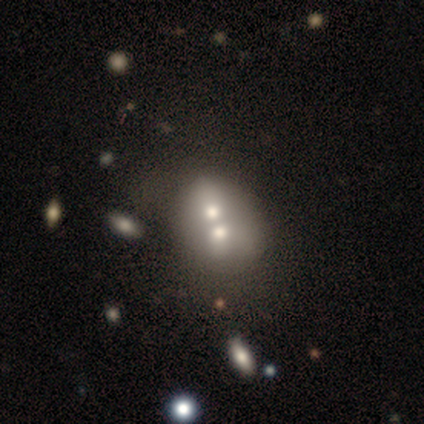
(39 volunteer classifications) Overall: smooth (54%; featured or disk 41%). How rounded: in between (67%; round 33%). Merging: merger (84%).